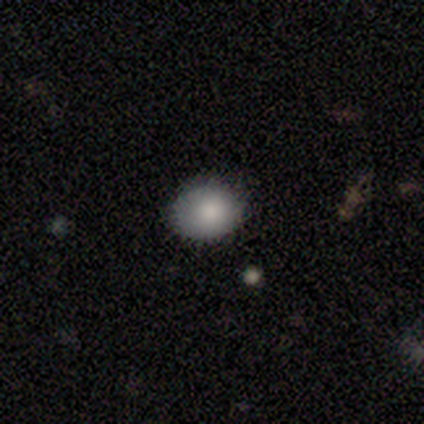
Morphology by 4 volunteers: smooth_or_featured: smooth (p=1.00)
how_rounded: round (p=0.75) [alt: in between p=0.25]
merging: none (p=1.00)